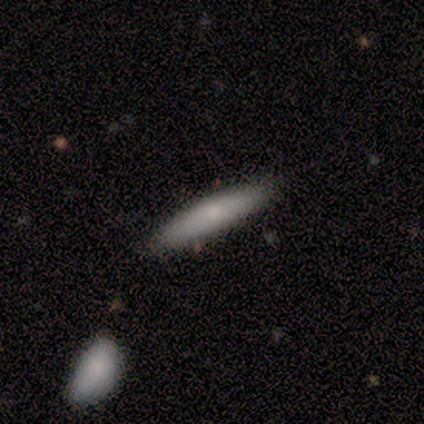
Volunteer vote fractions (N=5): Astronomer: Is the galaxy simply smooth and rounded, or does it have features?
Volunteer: smooth — 60% (runner-up: featured or disk, 40%).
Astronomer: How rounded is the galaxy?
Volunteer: cigar-shaped — 100%.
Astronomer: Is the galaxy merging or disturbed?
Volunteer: none — 80%.